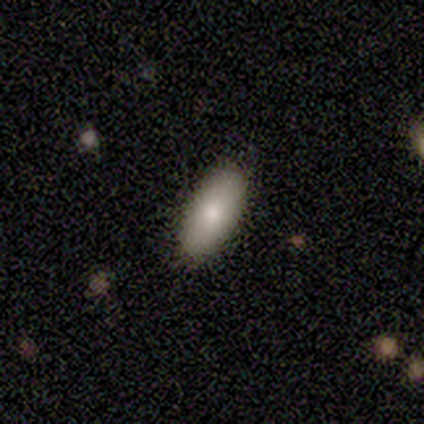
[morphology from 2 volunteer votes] Smooth or featured? 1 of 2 (50%, tied with featured or disk) said smooth. How rounded? 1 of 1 (100%) said in between. Merging? 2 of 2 (100%) said none.